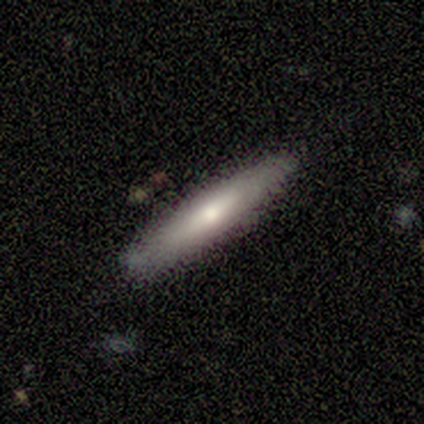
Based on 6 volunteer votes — Morphology: type=smooth (83%); roundness=cigar-shaped (100%); merging=none (83%).